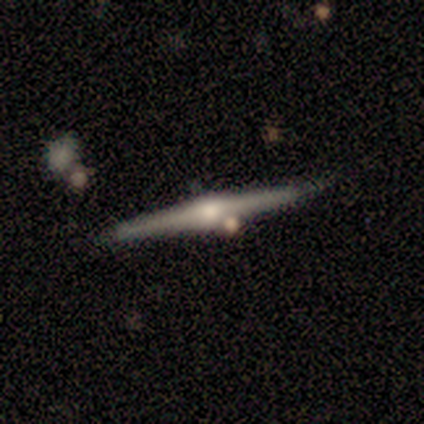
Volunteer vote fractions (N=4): Smooth or featured: featured or disk — 100%
Edge-on disk: yes — 100%
Edge-on bulge: rounded — 100%
Merging: none — 75% (merger — 25%)